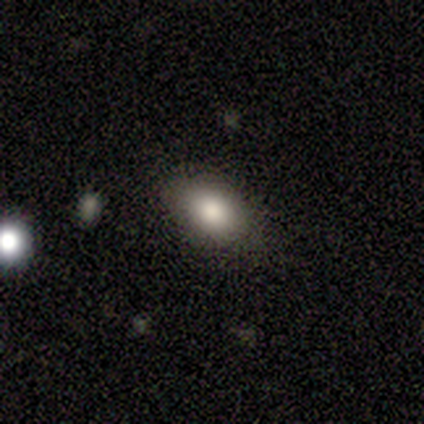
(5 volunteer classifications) smooth-or-featured: smooth: 80% | featured or disk: 20% | star or artifact: 0%
  how-rounded: in between: 100% | round: 0% | cigar-shaped: 0%
  merging: none: 60% | minor disturbance: 40% | major disturbance: 0% | merger: 0%